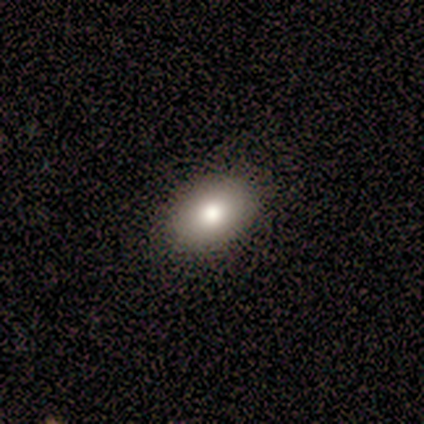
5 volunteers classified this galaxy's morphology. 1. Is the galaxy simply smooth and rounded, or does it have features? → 100% smooth, 0% featured or disk, 0% star or artifact.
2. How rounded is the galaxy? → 60% in between, 40% round, 0% cigar-shaped.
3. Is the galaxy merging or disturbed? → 100% none, 0% minor disturbance, 0% major disturbance, 0% merger.